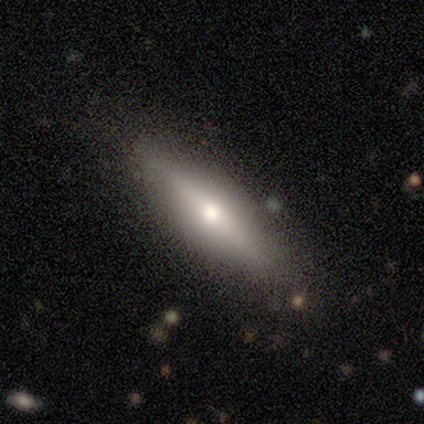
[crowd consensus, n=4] A smooth galaxy with no disk features (75%) that is cigar-shaped (67%). Merging: none (100%).